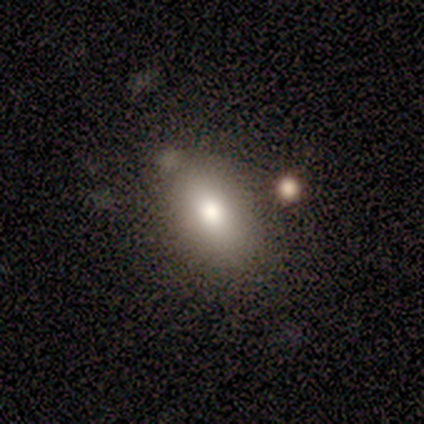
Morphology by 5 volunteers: smooth-or-featured: smooth: 80% | featured or disk: 20% | star or artifact: 0%
  how-rounded: in between: 100% | round: 0% | cigar-shaped: 0%
  merging: none: 80% | minor disturbance: 20% | major disturbance: 0% | merger: 0%